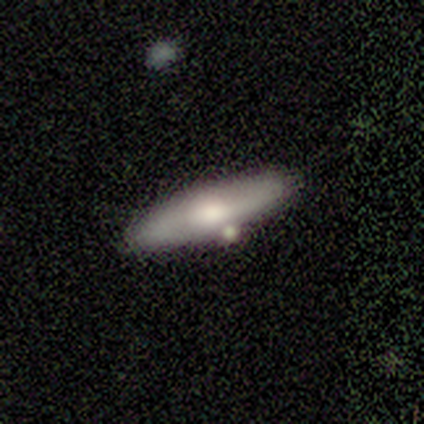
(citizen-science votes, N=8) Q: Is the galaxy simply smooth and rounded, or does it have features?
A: smooth — 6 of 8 (75%).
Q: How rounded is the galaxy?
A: cigar-shaped — 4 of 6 (67%).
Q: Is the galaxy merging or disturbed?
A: none — 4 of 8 (50%, tied with minor disturbance).